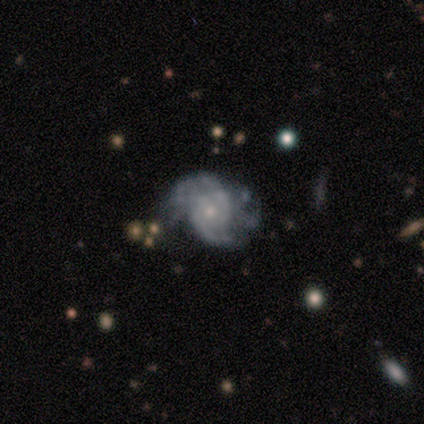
Smooth or featured? featured or disk (100%)
Edge-on disk? no (100%)
Bar? no (60%)
Spiral arms? yes (80%)
Spiral winding? tight (50%, tied with medium)
Spiral arm count? 2 (75%)
Bulge size? moderate (60%)
Merging? none (60%)